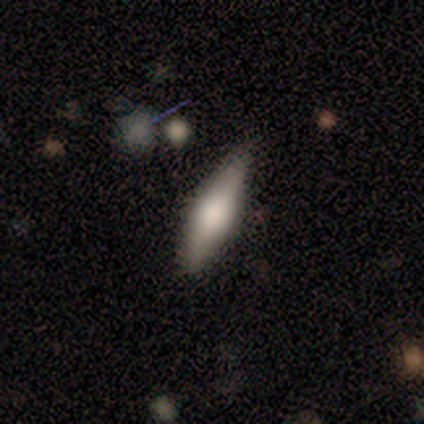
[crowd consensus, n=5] Smooth or featured: featured or disk — 60% (smooth — 40%)
Edge-on disk: yes — 100%
Edge-on bulge: rounded — 67% (boxy — 33%)
Merging: none — 80% (minor disturbance — 20%)